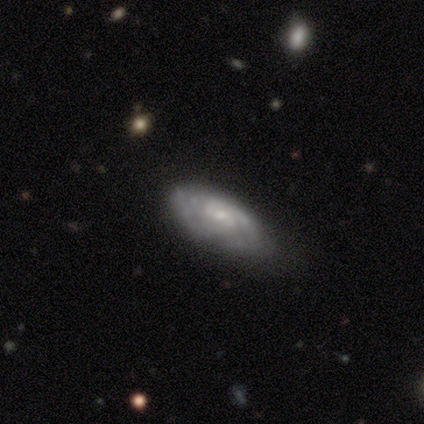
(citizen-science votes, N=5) Volunteers were most divided on "spiral arm count" (2-way tie): 2: 50%, can't tell: 50%, 1: 0%, 3: 0%, 4: 0%, more than 4: 0%. More confident: edge-on disk — no (100%); bar — no (100%); spiral arms — yes (100%); bulge size — small (100%); smooth or featured — featured or disk (80%); spiral winding — tight (75%); merging — none (60%).